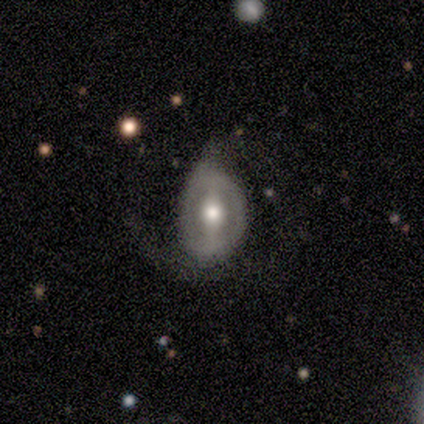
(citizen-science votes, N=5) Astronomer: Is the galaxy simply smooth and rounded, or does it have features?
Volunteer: featured or disk — 60%.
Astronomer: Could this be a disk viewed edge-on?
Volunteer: no — 100%.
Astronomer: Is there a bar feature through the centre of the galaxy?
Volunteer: strong — 67%.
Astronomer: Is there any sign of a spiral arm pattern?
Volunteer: no — 100%.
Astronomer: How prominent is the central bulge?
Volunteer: moderate — 100%.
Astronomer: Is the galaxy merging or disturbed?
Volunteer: minor disturbance — 50%, tied with major disturbance at 50%.